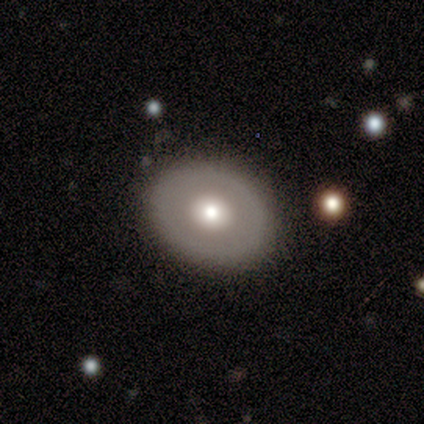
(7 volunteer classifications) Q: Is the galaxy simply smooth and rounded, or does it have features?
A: smooth — 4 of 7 (57%).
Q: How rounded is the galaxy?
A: round — 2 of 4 (50%, tied with in between).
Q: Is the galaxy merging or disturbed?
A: none — 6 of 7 (86%).